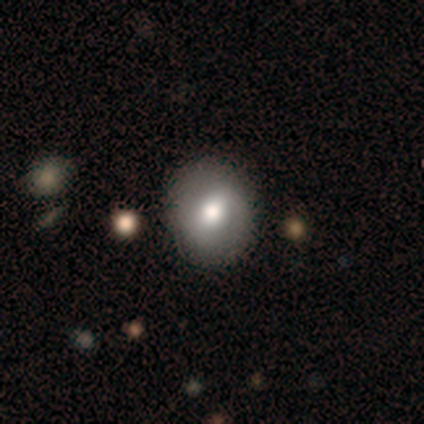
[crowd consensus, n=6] smooth_or_featured: smooth (p=0.67) [alt: featured or disk p=0.33]
how_rounded: round (p=0.75) [alt: in between p=0.25]
merging: none (p=0.83) [alt: major disturbance p=0.17]